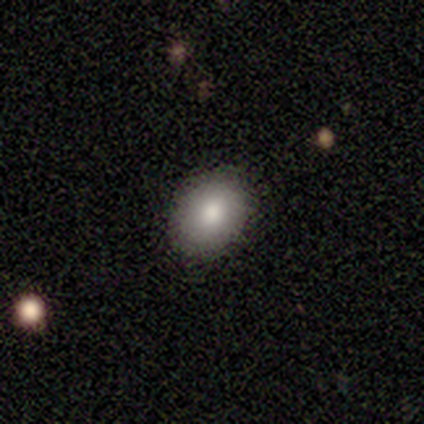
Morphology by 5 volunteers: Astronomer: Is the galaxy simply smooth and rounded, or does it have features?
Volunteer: smooth — 80%.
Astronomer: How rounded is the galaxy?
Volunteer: in between — 75%.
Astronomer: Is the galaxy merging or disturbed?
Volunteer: none — 50%, tied with minor disturbance at 50%.